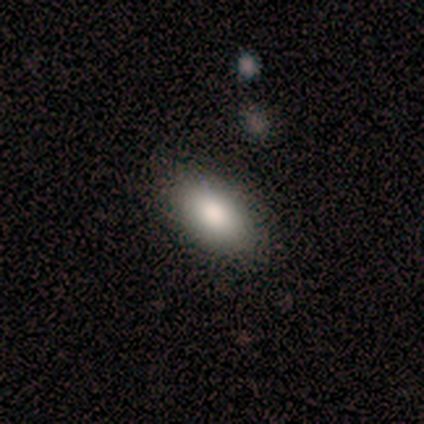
Smooth or featured? 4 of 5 (80%) said smooth. How rounded? 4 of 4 (100%) said in between. Merging? 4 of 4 (100%) said none.